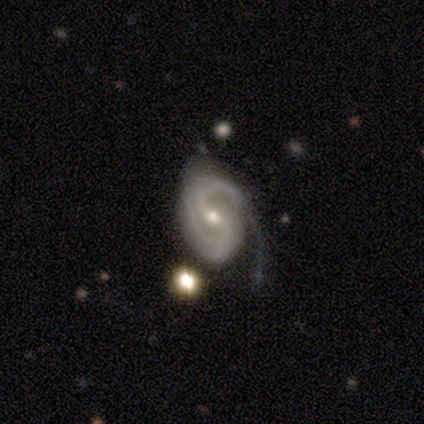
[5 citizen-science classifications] Smooth or featured? featured or disk (100%)
Edge-on disk? no (100%)
Bar? no (80%)
Spiral arms? yes (100%)
Spiral winding? medium (60%)
Spiral arm count? 3 (60%)
Bulge size? moderate (80%)
Merging? minor disturbance (60%)